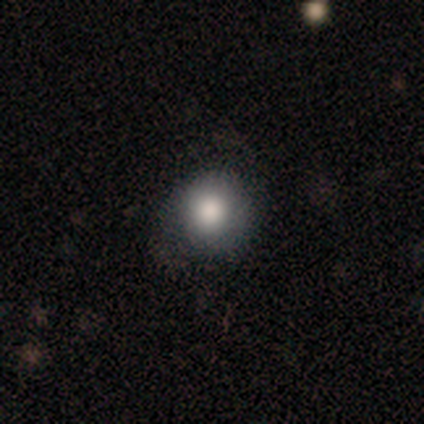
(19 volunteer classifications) Overall: smooth (89%). How rounded: round (94%). Merging: none (78%).